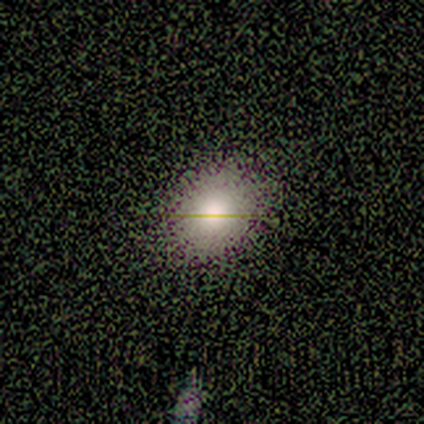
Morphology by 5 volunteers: Smooth or featured? smooth (40%, tied with star or artifact)
How rounded? round (50%, tied with in between)
Merging? none (100%)